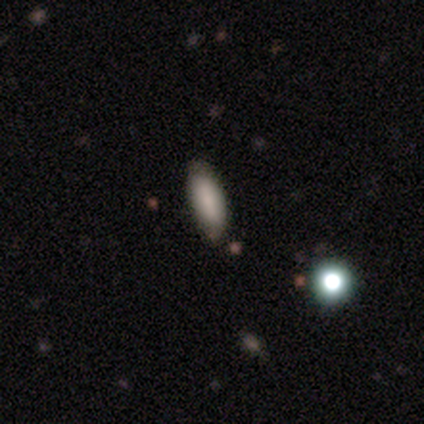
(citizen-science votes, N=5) Smooth or featured? 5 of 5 (100%) said smooth. How rounded? 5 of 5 (100%) said in between. Merging? 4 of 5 (80%) said none.